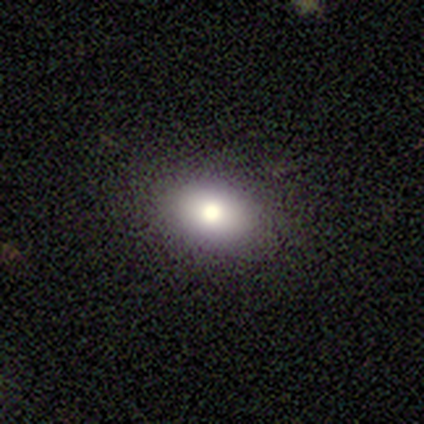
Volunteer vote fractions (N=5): Smooth or featured: smooth — 60% (featured or disk — 40%)
How rounded: round — 67% (in between — 33%)
Merging: none — 100%